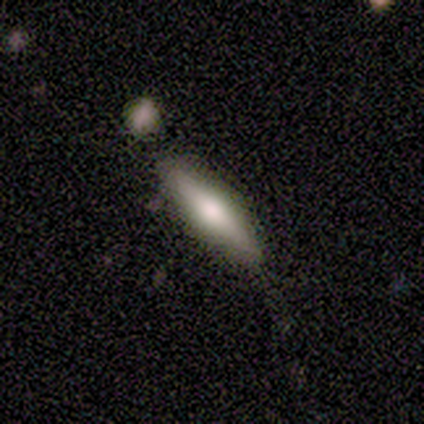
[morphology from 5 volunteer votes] smooth_or_featured: smooth (p=0.60) [alt: featured or disk p=0.40]
how_rounded: cigar-shaped (p=0.67) [alt: in between p=0.33]
merging: none (p=0.80) [alt: merger p=0.20]